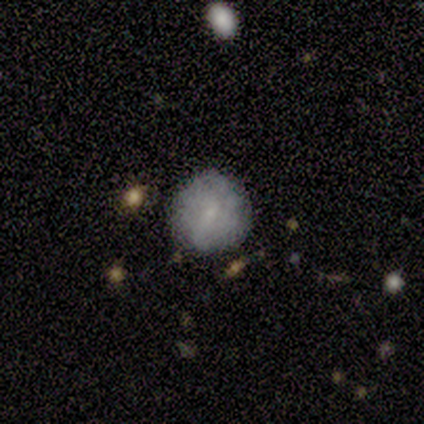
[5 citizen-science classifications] Smooth or featured? 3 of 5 (60%) said featured or disk. Edge-on disk? 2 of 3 (67%) said no. Bar? 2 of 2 (100%) said no. Spiral arms? 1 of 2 (50%, tied with no) said yes. Spiral winding? 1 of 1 (100%) said loose. Spiral arm count? 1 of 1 (100%) said 1. Bulge size? 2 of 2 (100%) said small. Merging? 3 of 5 (60%) said none.